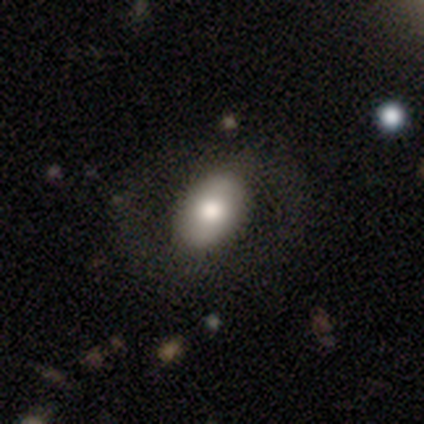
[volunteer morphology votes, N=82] Smooth or featured: smooth — 63% (featured or disk — 30%)
How rounded: in between — 92% (round — 8%)
Merging: none — 43% (major disturbance — 10%)